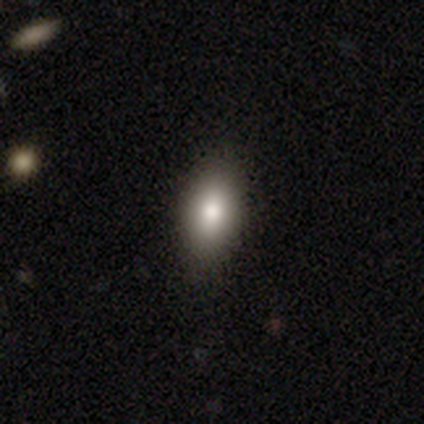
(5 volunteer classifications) smooth_or_featured: smooth (p=0.80) [alt: featured or disk p=0.20]
how_rounded: in between (p=1.00)
merging: none (p=0.80) [alt: major disturbance p=0.20]